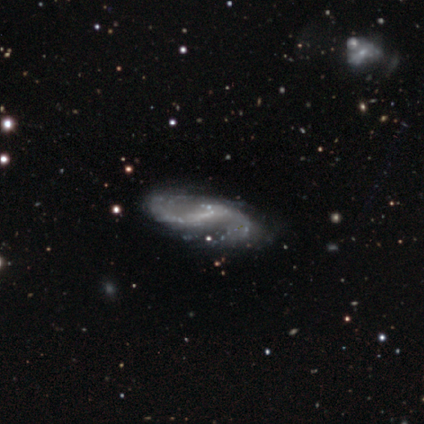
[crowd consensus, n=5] Overall: featured or disk (100%). Edge-on disk: no (100%). Bar: strong (60%; weak 40%). Spiral arms: yes (100%). Spiral arm count: 2 (100%). Spiral winding: loose (60%; medium 40%). Bulge size: none (60%; large 20%). Merging: none (80%).